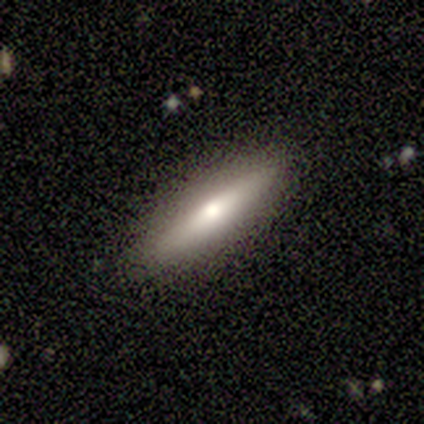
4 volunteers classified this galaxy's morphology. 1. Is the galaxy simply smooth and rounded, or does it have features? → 50% smooth (tied), 50% featured or disk (tied), 0% star or artifact.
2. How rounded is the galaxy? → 100% cigar-shaped, 0% round, 0% in between.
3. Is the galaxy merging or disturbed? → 75% none, 25% major disturbance, 0% minor disturbance, 0% merger.